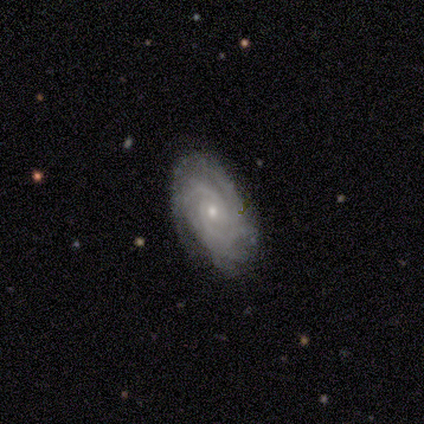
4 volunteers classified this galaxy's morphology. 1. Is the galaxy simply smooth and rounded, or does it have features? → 100% featured or disk, 0% smooth, 0% star or artifact.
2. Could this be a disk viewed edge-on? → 100% no, 0% yes.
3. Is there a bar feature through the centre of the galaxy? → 75% weak, 25% no, 0% strong.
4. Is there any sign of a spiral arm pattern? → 100% yes, 0% no.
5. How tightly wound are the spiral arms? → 50% tight (tied), 50% medium (tied), 0% loose.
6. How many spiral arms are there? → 50% 3 (tied), 50% 4 (tied), 0% 1, 0% 2, 0% more than 4, 0% can't tell.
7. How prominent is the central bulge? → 75% moderate, 25% small, 0% dominant, 0% large, 0% none.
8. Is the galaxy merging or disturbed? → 75% none, 25% minor disturbance, 0% major disturbance, 0% merger.